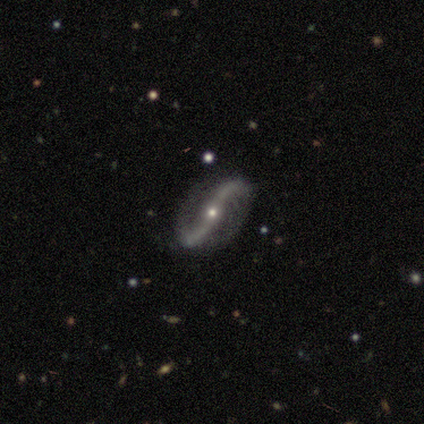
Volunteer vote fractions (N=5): Q: Smooth or featured?
A: featured or disk (100%)
Q: Edge-on disk?
A: no (100%)
Q: Bar?
A: strong (40%); tied with: no (40%)
Q: Spiral arms?
A: yes (100%)
Q: Spiral winding?
A: loose (100%)
Q: Spiral arm count?
A: 2 (100%)
Q: Bulge size?
A: small (80%); runner-up: moderate (20%)
Q: Merging?
A: none (100%)